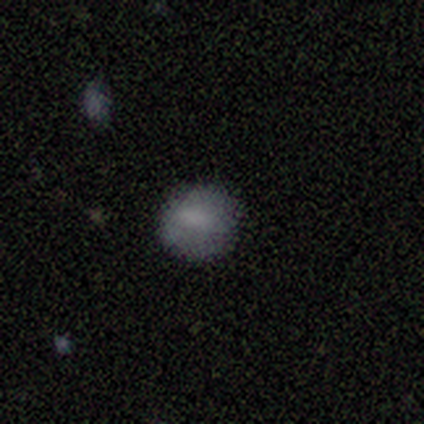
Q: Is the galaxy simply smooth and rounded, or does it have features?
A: smooth — 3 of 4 (75%).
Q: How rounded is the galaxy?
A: round — 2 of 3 (67%).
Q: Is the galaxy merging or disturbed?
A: none — 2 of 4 (50%).